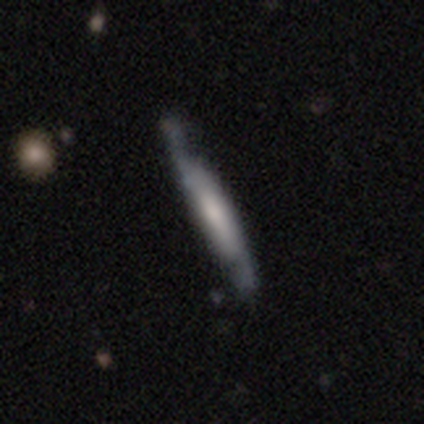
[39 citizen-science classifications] A featured or disk galaxy (67%) viewed edge-on (88%) with a boxy central bulge (48%, tied with none). Merging: none (74%).